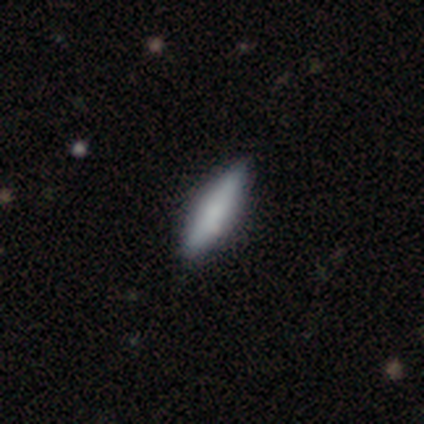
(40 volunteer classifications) smooth-or-featured: smooth: 68% | featured or disk: 30% | star or artifact: 2%
  how-rounded: cigar-shaped: 63% | in between: 37% | round: 0%
  merging: none: 92% | minor disturbance: 8% | major disturbance: 0% | merger: 0%